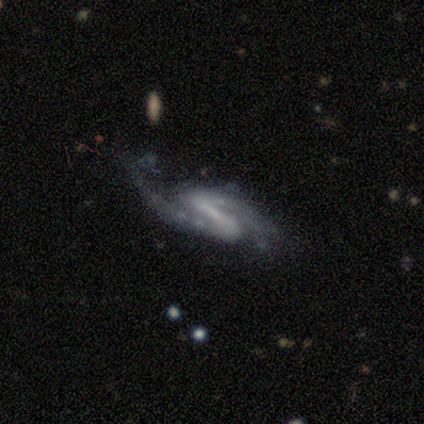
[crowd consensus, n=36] Smooth or featured: featured or disk — 92% (star or artifact — 6%)
Edge-on disk: no — 85% (yes — 15%)
Bar: strong — 71% (weak — 14%)
Spiral arms: yes — 100%
Spiral winding: loose — 57% (medium — 39%)
Spiral arm count: 2 — 100%
Bulge size: none — 75% (small — 14%)
Merging: none — 65% (major disturbance — 21%)